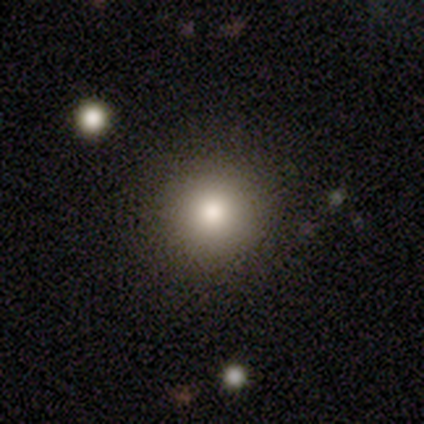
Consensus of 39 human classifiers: Overall: smooth (77%). How rounded: round (97%). Merging: none (91%).